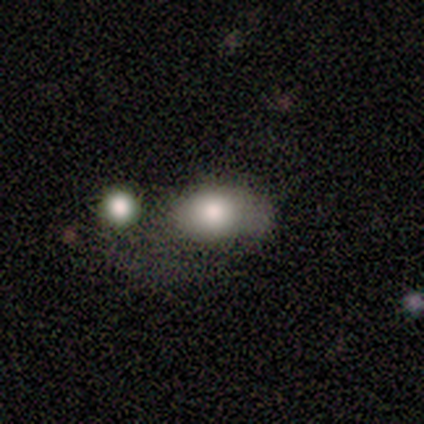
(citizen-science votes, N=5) smooth 100%, featured or disk 0%, star or artifact 0%. Down the decision tree: how rounded — in between (60%); merging — minor disturbance (60%).